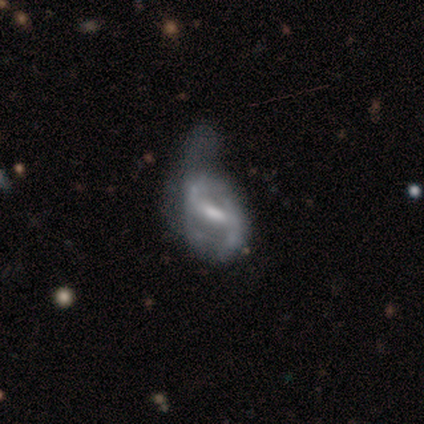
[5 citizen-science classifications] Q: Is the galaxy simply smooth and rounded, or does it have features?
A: featured or disk — 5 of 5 (100%).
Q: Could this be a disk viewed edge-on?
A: no — 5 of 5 (100%).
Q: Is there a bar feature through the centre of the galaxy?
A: weak — 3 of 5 (60%).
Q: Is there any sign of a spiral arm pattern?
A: yes — 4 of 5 (80%).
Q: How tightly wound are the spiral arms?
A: loose — 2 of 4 (50%).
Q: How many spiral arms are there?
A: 2 — 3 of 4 (75%).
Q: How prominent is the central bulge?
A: moderate — 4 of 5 (80%).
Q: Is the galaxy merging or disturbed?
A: minor disturbance — 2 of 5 (40%, tied with major disturbance).